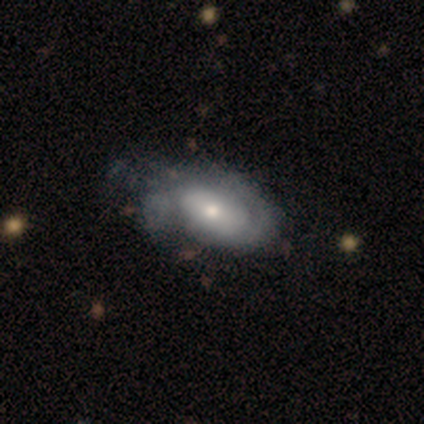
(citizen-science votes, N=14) Morphology: type=featured or disk (64%); edge-on=no (89%); bar=no (88%); spiral arms=yes (75%); winding=tight (83%); arm count=1 (33%, tied with 2 and can't tell); bulge=moderate (50%); merging=none (43%).